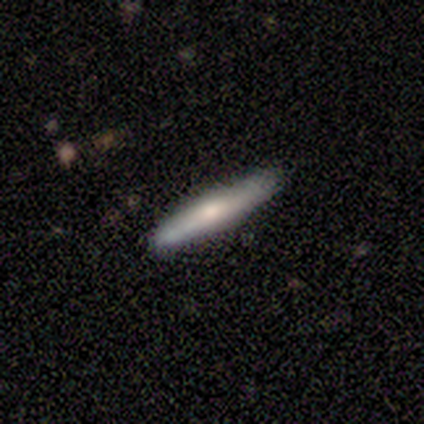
Q: Smooth or featured?
A: smooth (67%); runner-up: featured or disk (33%)
Q: How rounded?
A: cigar-shaped (100%)
Q: Merging?
A: none (100%)